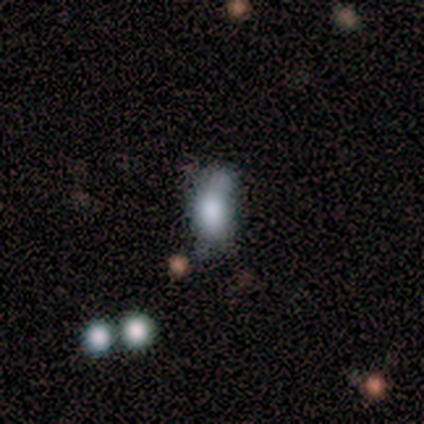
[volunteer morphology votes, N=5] A smooth galaxy with no disk features (80%) that is in between round and cigar-shaped (75%). Merging: minor disturbance (40%, tied with merger).